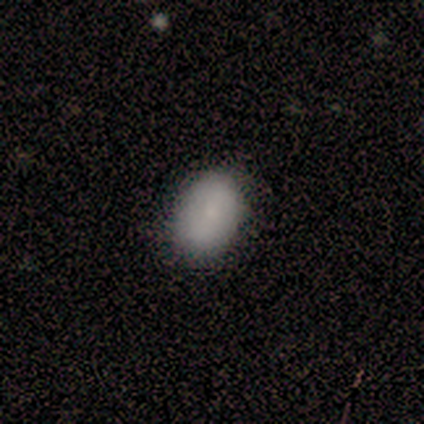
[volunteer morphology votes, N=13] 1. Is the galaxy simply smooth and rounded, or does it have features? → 85% smooth, 15% featured or disk, 0% star or artifact.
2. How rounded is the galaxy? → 91% in between, 9% round, 0% cigar-shaped.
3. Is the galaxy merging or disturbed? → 85% none, 15% minor disturbance, 0% major disturbance, 0% merger.